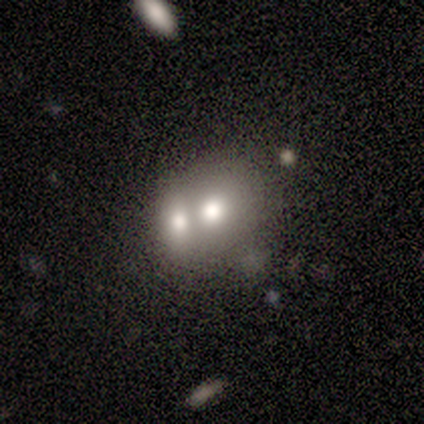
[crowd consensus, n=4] Volunteers were most divided on "how rounded": in between: 75%, round: 25%, cigar-shaped: 0%. More confident: smooth or featured — smooth (100%); merging — merger (75%).